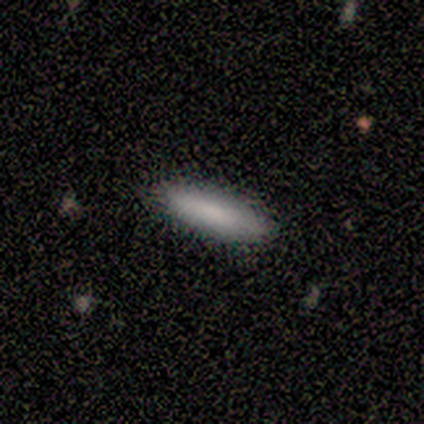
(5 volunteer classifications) smooth 100%, featured or disk 0%, star or artifact 0%. Down the decision tree: how rounded — cigar-shaped (80%); merging — none (80%).